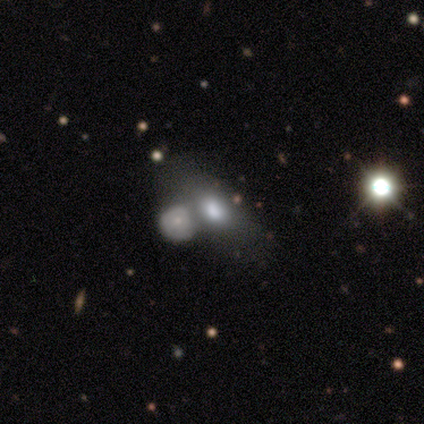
Smooth or featured?
  - smooth: 60% *
  - featured or disk: 20%
  - star or artifact: 20%
How rounded?
  - in between: 67% *
  - round: 33%
  - cigar-shaped: 0%
Merging?
  - merger: 75% *
  - none: 25%
  - minor disturbance: 0%
  - major disturbance: 0%